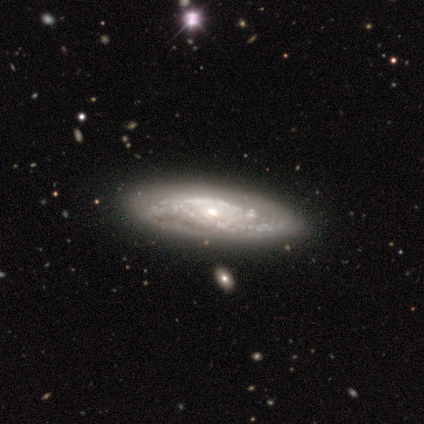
Smooth or featured? featured or disk (91%)
Edge-on disk? no (91%)
Bar? no (97%)
Spiral arms? yes (79%)
Spiral winding? tight (84%)
Spiral arm count? can't tell (68%)
Bulge size? moderate (51%)
Merging? none (74%)